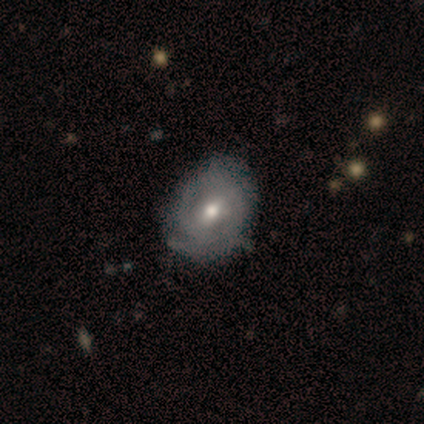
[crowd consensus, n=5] featured or disk 100%, smooth 0%, star or artifact 0%. Down the decision tree: edge-on disk — no (100%); bar — weak (60%); spiral arms — no (60%); bulge size — moderate (100%); merging — minor disturbance (60%).